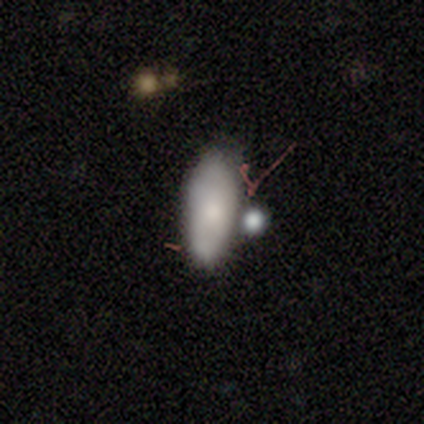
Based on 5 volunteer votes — Overall: smooth (80%). How rounded: in between (75%). Merging: merger (60%; none 40%).